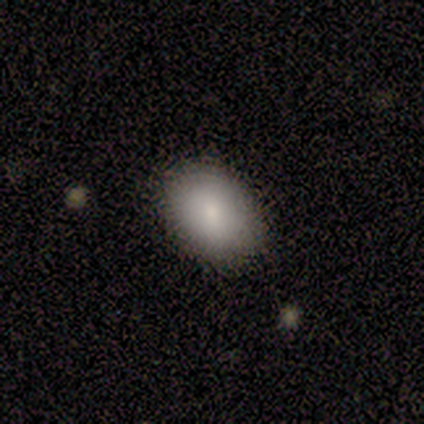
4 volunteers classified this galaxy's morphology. A smooth galaxy with no disk features (100%) that is in between round and cigar-shaped (75%). Merging: none (100%).